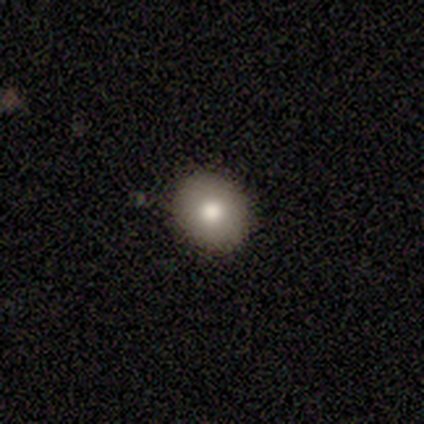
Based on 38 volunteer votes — Smooth or featured: smooth — 74% (featured or disk — 18%)
How rounded: round — 93% (in between — 7%)
Merging: none — 86% (minor disturbance — 9%)